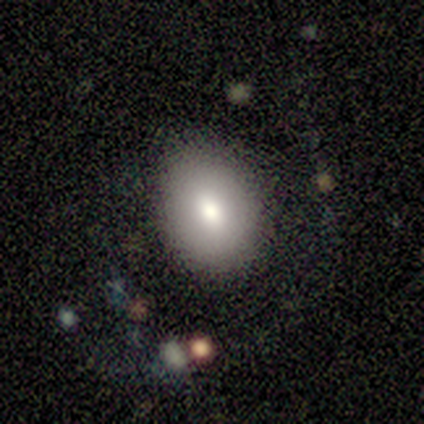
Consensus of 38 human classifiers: smooth_or_featured: smooth (p=0.76) [alt: featured or disk p=0.16]
how_rounded: in between (p=0.66) [alt: round p=0.34]
merging: none (p=0.91) [alt: minor disturbance p=0.03]